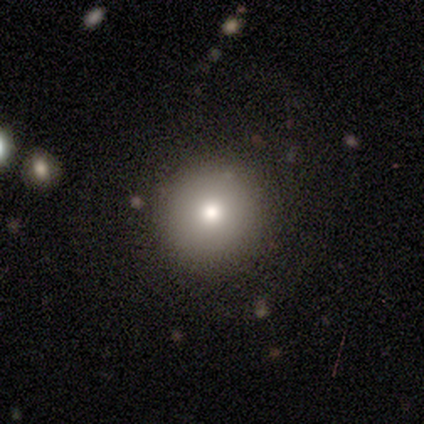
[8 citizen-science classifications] Q: Smooth or featured?
A: smooth (100%)
Q: How rounded?
A: round (100%)
Q: Merging?
A: none (88%); runner-up: minor disturbance (12%)